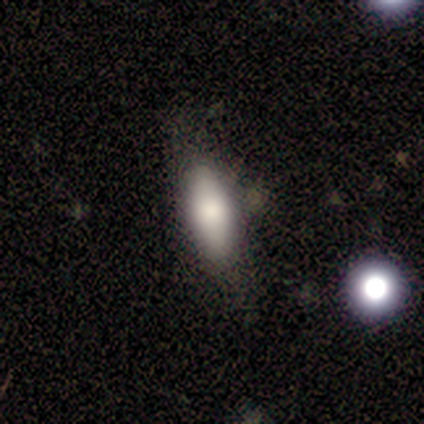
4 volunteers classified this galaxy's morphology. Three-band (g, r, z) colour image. It shows a smooth galaxy with no disk features (75%) that is in between round and cigar-shaped (100%). Merging: none (75%).